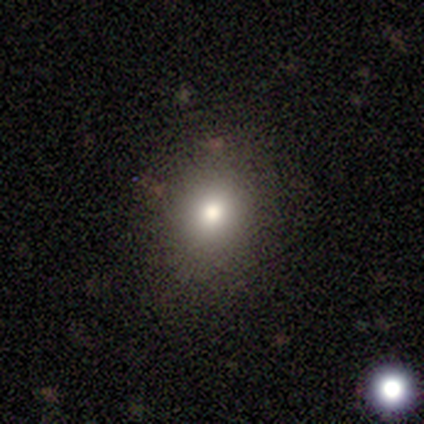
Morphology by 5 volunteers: This is clearly a smooth galaxy (80%). How rounded: possibly round (50%, tied with in between). Merging: clearly none (100%).